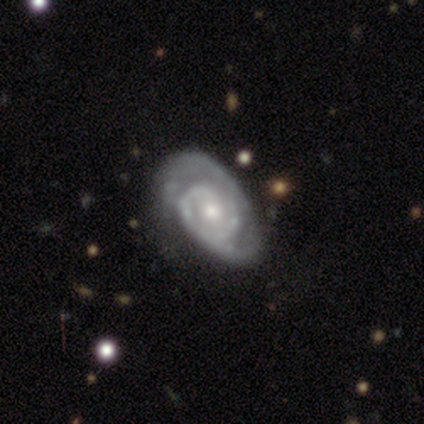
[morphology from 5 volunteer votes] Smooth or featured? featured or disk (80%)
Edge-on disk? no (100%)
Bar? weak (50%, tied with no)
Spiral arms? yes (100%)
Spiral winding? medium (75%)
Spiral arm count? 2 (75%)
Bulge size? moderate (75%)
Merging? none (80%)